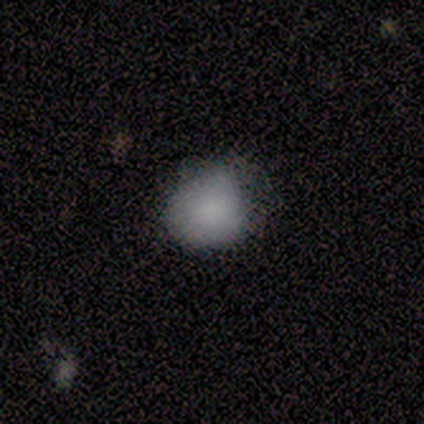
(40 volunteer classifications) This appears to be a smooth galaxy with no disk features (85%) that is round (74%). Merging: none (41%).